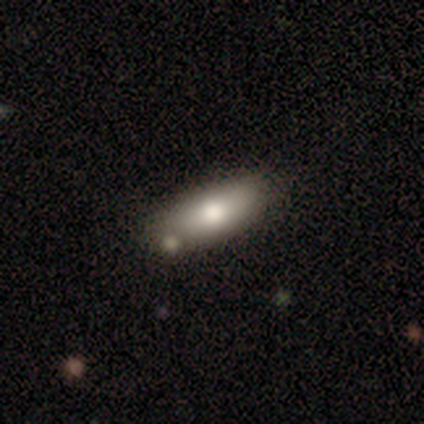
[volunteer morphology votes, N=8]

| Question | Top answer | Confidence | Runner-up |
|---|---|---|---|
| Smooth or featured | smooth | 88% | featured or disk (12%) |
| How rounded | in between | 71% | cigar-shaped (29%) |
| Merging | none | 88% | minor disturbance (12%) |